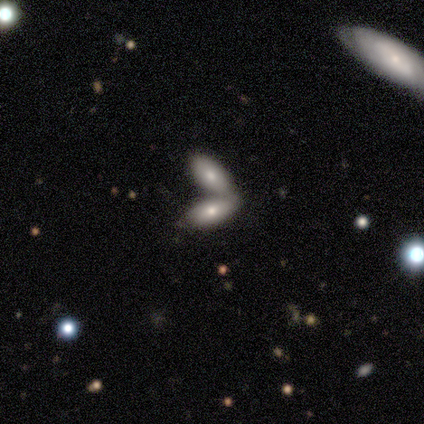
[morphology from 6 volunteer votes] Overall: smooth (67%; featured or disk 33%). How rounded: in between (50%; round 25%). Merging: merger (67%; none 33%).